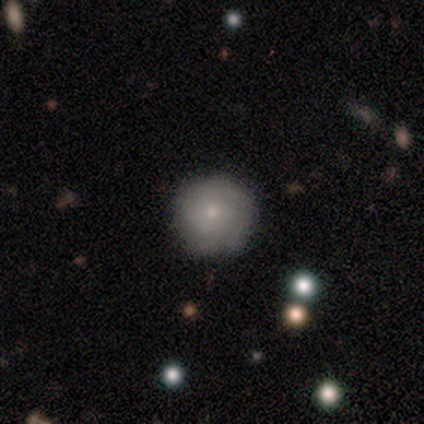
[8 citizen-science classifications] This is possibly a smooth galaxy (50%). How rounded: likely round (75%). Merging: likely none (71%).